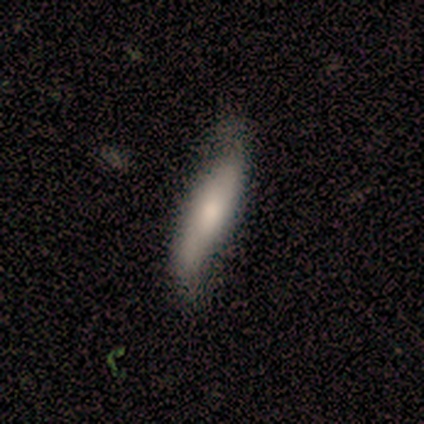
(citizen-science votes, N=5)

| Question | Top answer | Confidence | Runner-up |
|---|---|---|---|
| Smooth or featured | featured or disk | 60% | smooth (40%) |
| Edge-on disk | no | 67% | yes (33%) |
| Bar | weak | 50% | tied: no (50%) |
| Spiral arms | yes | 100% | — |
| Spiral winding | loose | 100% | — |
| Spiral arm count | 2 | 100% | — |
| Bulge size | large | 50% | tied: small (50%) |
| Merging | none | 80% | major disturbance (20%) |